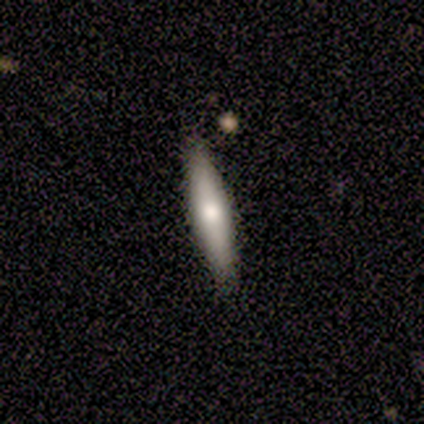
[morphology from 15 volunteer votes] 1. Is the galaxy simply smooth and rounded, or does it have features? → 60% smooth, 33% featured or disk, 7% star or artifact.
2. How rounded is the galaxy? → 78% cigar-shaped, 22% in between, 0% round.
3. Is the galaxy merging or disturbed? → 86% none, 7% minor disturbance, 7% merger, 0% major disturbance.